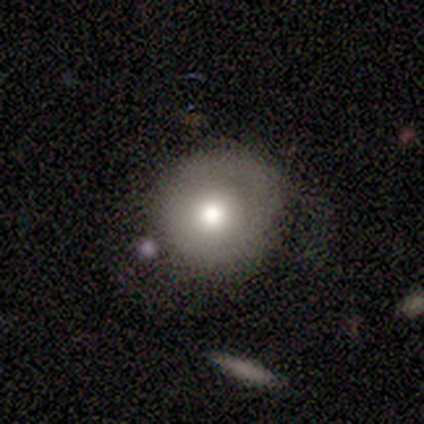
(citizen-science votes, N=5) smooth-or-featured: smooth: 80% | featured or disk: 20% | star or artifact: 0%
  how-rounded: round: 75% | in between: 25% | cigar-shaped: 0%
  merging: none: 40% (tied) | major disturbance: 40% (tied) | merger: 20% | minor disturbance: 0%